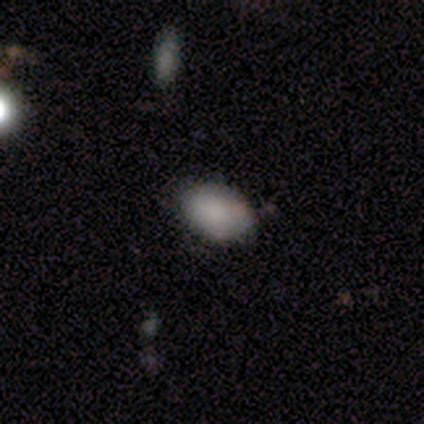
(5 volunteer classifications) Smooth or featured?
  - smooth: 100% *
  - featured or disk: 0%
  - star or artifact: 0%
How rounded?
  - in between: 100% *
  - round: 0%
  - cigar-shaped: 0%
Merging?
  - none: 60% *
  - minor disturbance: 20%
  - major disturbance: 20%
  - merger: 0%